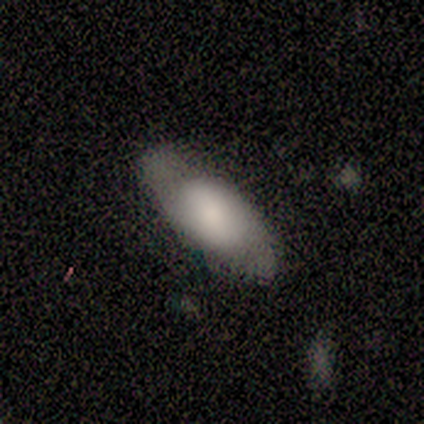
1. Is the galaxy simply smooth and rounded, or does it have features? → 60% smooth, 40% featured or disk, 0% star or artifact.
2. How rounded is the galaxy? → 100% in between, 0% round, 0% cigar-shaped.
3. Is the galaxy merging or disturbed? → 80% none, 20% minor disturbance, 0% major disturbance, 0% merger.